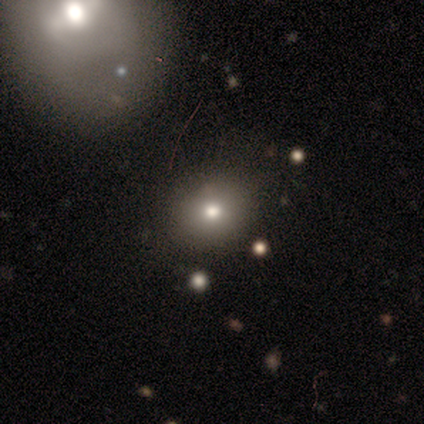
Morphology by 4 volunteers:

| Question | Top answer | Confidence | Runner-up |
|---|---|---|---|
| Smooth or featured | smooth | 75% | star or artifact (25%) |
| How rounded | round | 67% | in between (33%) |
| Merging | none | 100% | — |